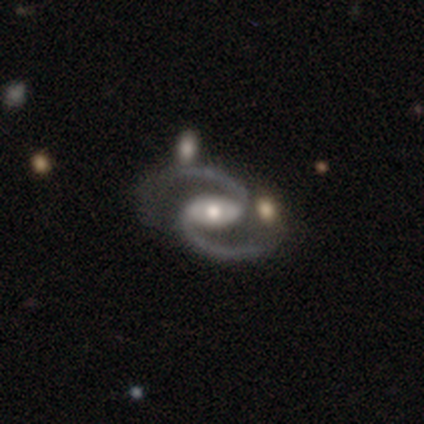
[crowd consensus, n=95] Q: Smooth or featured?
A: featured or disk (91%); runner-up: star or artifact (6%)
Q: Edge-on disk?
A: no (98%); runner-up: yes (2%)
Q: Bar?
A: weak (42%); runner-up: strong (32%)
Q: Spiral arms?
A: yes (100%)
Q: Spiral winding?
A: medium (65%); runner-up: loose (29%)
Q: Spiral arm count?
A: 2 (99%); runner-up: 1 (1%)
Q: Bulge size?
A: moderate (61%); runner-up: small (25%)
Q: Merging?
A: none (78%); runner-up: merger (10%)